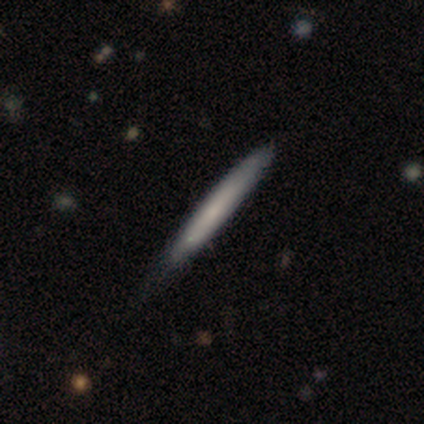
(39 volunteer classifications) Q: Smooth or featured?
A: smooth (64%); runner-up: featured or disk (33%)
Q: How rounded?
A: cigar-shaped (100%)
Q: Merging?
A: none (45%); runner-up: minor disturbance (18%)